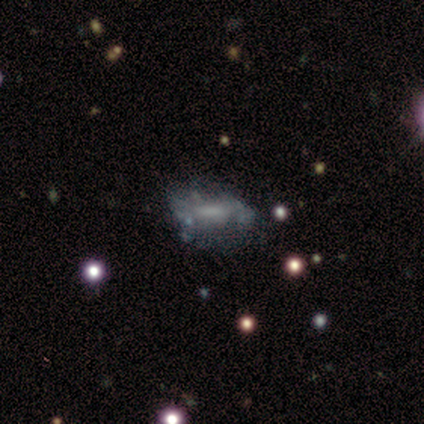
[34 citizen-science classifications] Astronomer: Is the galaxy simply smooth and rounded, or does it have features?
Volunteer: featured or disk — 56%.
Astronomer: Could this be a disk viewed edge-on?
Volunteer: no — 89%.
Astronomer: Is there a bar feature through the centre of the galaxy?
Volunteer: no — 53% (runner-up: weak, 41%).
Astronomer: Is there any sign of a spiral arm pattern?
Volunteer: no — 71%.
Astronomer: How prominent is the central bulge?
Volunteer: none — 59%.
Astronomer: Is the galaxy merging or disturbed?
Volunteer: none — 41% (runner-up: minor disturbance, 34%).